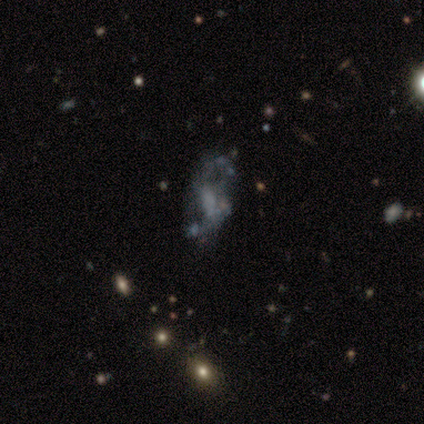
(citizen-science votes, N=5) smooth-or-featured: featured or disk: 80% | star or artifact: 20% | smooth: 0%
  disk-edge-on: no: 75% | yes: 25%
    bar: weak: 67% | no: 33% | strong: 0%
    has-spiral-arms: no: 67% | yes: 33%
    bulge-size: none: 67% | small: 33% | dominant: 0% | large: 0% | moderate: 0%
  merging: major disturbance: 50% | minor disturbance: 25% | merger: 25% | none: 0%